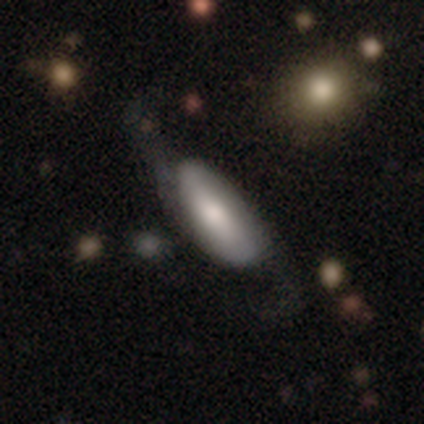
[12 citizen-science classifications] This is possibly a smooth galaxy (58%). How rounded: clearly in between (86%). Merging: possibly none (50%).